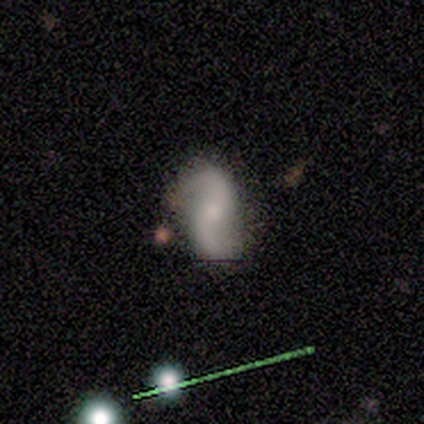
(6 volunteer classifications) Smooth or featured?
  - featured or disk: 83% *
  - smooth: 17%
  - star or artifact: 0%
Edge-on disk?
  - no: 100% *
  - yes: 0%
Bar?
  - no: 100% *
  - strong: 0%
  - weak: 0%
Spiral arms?
  - yes: 100% *
  - no: 0%
Spiral winding?
  - loose: 60% *
  - medium: 40%
  - tight: 0%
Spiral arm count?
  - 2: 100% *
  - 1: 0%
  - 3: 0%
  - 4: 0%
  - more than 4: 0%
  - can't tell: 0%
Bulge size?
  - moderate: 60% *
  - small: 40%
  - dominant: 0%
  - large: 0%
  - none: 0%
Merging?
  - none: 83% *
  - minor disturbance: 17%
  - major disturbance: 0%
  - merger: 0%